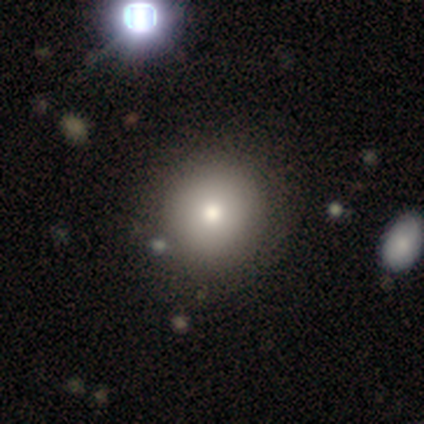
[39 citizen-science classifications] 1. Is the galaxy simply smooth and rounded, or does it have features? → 74% smooth, 23% featured or disk, 3% star or artifact.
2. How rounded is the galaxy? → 93% round, 7% in between, 0% cigar-shaped.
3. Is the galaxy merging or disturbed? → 68% none, 3% major disturbance, 0% minor disturbance, 0% merger.